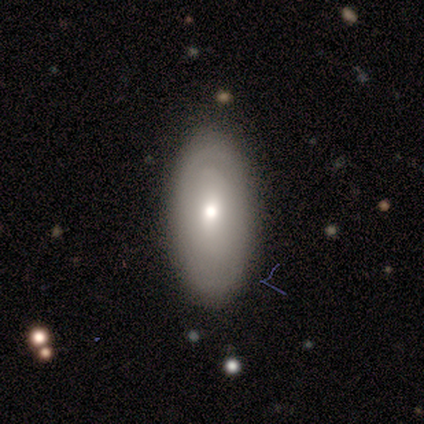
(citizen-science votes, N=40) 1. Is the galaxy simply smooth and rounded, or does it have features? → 70% smooth, 30% featured or disk, 0% star or artifact.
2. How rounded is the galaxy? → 89% in between, 11% cigar-shaped, 0% round.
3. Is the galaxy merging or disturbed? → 80% none, 12% minor disturbance, 8% major disturbance, 0% merger.